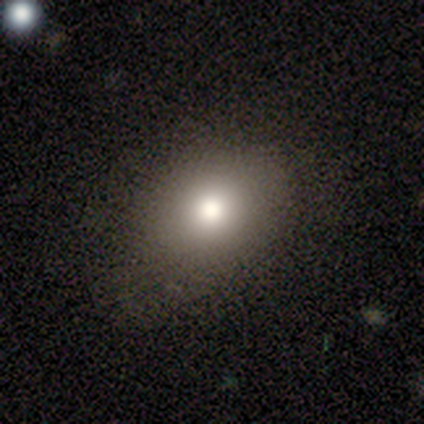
This is clearly a smooth galaxy (100%). How rounded: possibly round (50%, tied with in between). Merging: possibly none (50%, tied with minor disturbance).